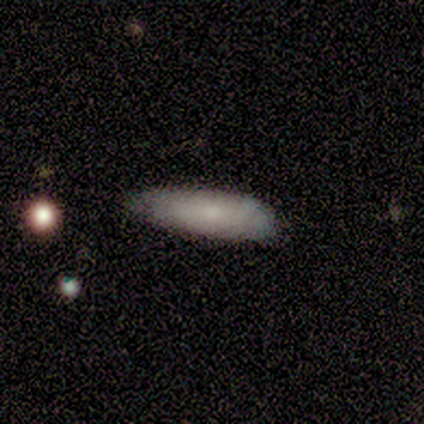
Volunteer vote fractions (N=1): A featured or disk galaxy (100%) viewed edge-on (100%) with a rounded central bulge (100%).

Vote fractions:
- Smooth or featured? featured or disk: 100% / smooth: 0% / star or artifact: 0%
- Edge-on disk? yes: 100% / no: 0%
- Edge-on bulge? rounded: 100% / boxy: 0% / none: 0%
- Merging? none: 100% / minor disturbance: 0% / major disturbance: 0% / merger: 0%